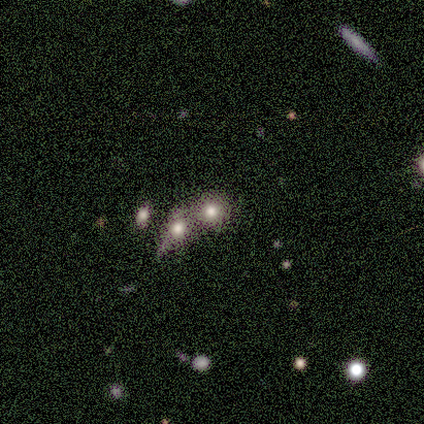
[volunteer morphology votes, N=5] smooth_or_featured: smooth (p=0.80) [alt: star or artifact p=0.20]
how_rounded: round (p=0.50) [tied with: in between p=0.50]
merging: merger (p=0.50) [alt: none p=0.25]